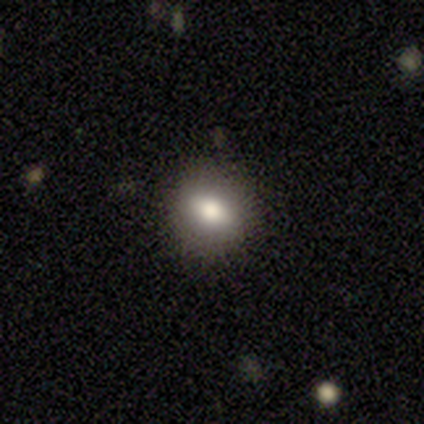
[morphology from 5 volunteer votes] A smooth galaxy with no disk features (100%) that is in between round and cigar-shaped (60%). Merging: none (80%).